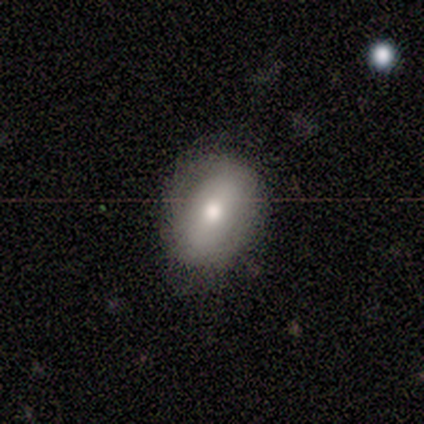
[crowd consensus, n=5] Smooth or featured? 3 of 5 (60%) said smooth. How rounded? 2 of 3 (67%) said in between. Merging? 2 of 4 (50%, tied with minor disturbance) said none.